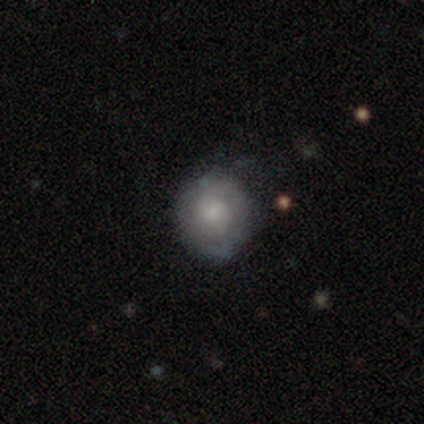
A smooth galaxy with no disk features (49%) that is round (82%). Merging: none (42%).